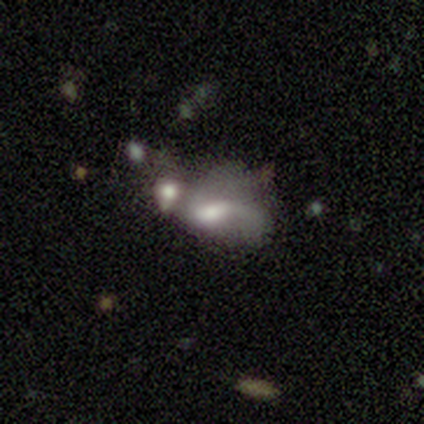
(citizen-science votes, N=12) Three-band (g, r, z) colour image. It shows a smooth galaxy with no disk features (50%) that is in between round and cigar-shaped (100%). Merging: merger (50%).